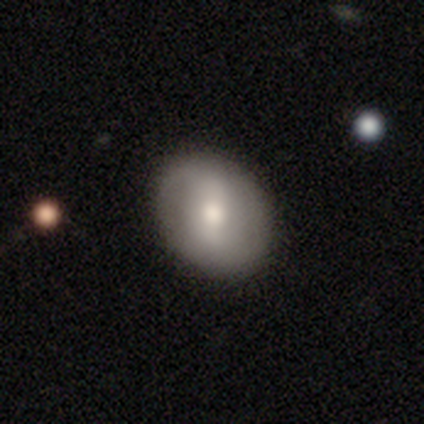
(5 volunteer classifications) Smooth or featured? 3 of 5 (60%) said smooth. How rounded? 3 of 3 (100%) said in between. Merging? 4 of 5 (80%) said none.